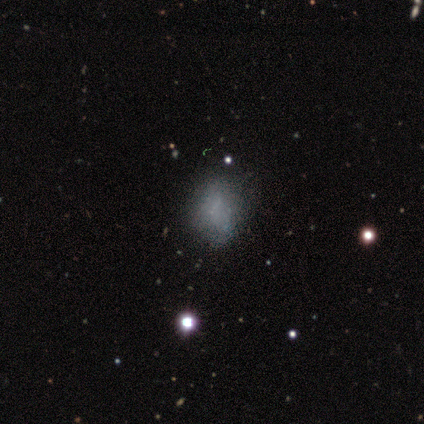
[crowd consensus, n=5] Q: Smooth or featured?
A: star or artifact (60%); runner-up: smooth (20%)